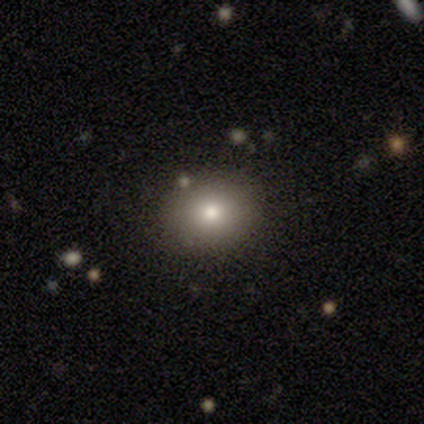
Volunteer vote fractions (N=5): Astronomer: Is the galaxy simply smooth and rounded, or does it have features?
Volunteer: smooth — 60%.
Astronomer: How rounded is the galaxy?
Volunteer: round — 100%.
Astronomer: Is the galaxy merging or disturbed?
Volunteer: none — 100%.